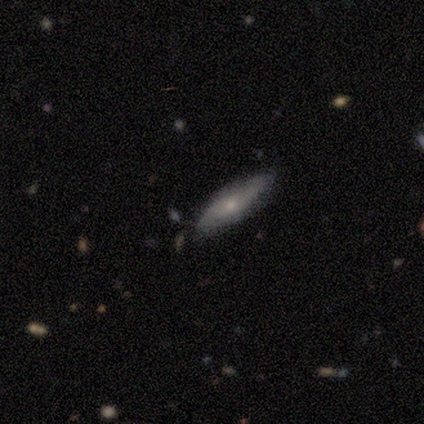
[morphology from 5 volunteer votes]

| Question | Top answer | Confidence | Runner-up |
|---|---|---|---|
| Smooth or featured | smooth | 60% | featured or disk (20%) |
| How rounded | in between | 67% | cigar-shaped (33%) |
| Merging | none | 75% | minor disturbance (25%) |